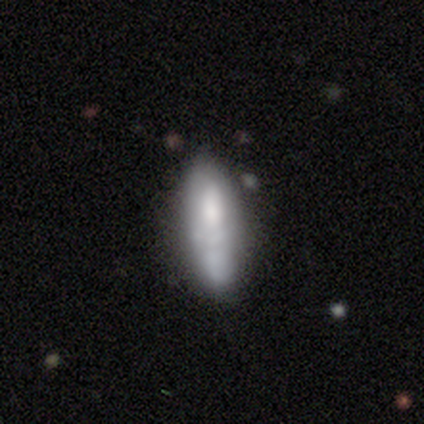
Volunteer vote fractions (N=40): Smooth or featured? smooth (68%)
How rounded? cigar-shaped (56%)
Merging? none (67%)